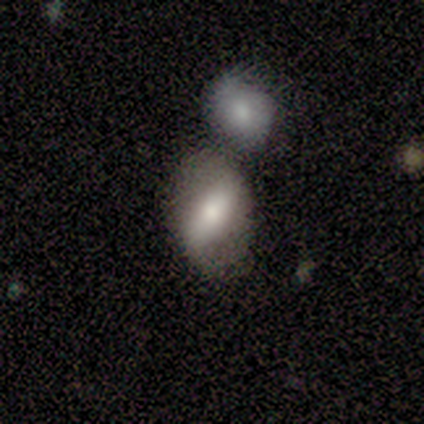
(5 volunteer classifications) smooth-or-featured: smooth: 60% | featured or disk: 40% | star or artifact: 0%
  how-rounded: in between: 100% | round: 0% | cigar-shaped: 0%
  merging: none: 60% | major disturbance: 20% | merger: 20% | minor disturbance: 0%